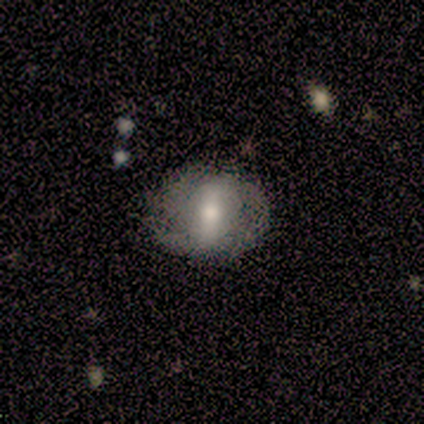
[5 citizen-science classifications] A smooth galaxy with no disk features (60%) that is round (100%). Merging: minor disturbance (40%, tied with major disturbance).